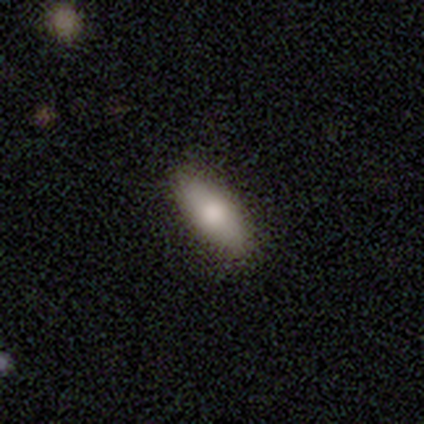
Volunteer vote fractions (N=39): Volunteers were most divided on "merging": none: 62%, minor disturbance: 3%, major disturbance: 0%, merger: 0%. More confident: smooth or featured — smooth (85%); how rounded — in between (82%).